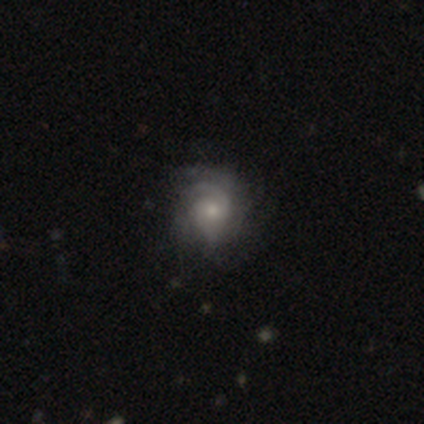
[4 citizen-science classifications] Overall: featured or disk (100%). Edge-on disk: no (100%). Bar: no (100%). Spiral arms: yes (100%). Spiral arm count: can't tell (75%). Spiral winding: tight (75%). Bulge size: small (75%). Merging: none (50%, tied with major disturbance).